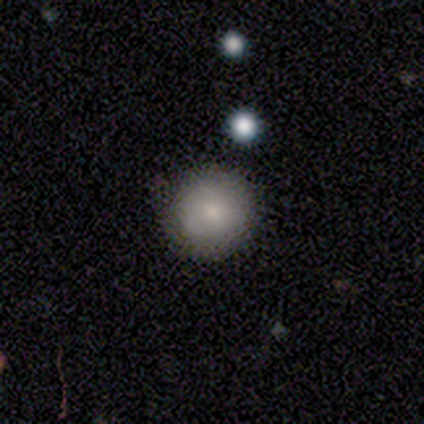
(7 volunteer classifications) Smooth or featured? smooth (86%)
How rounded? round (83%)
Merging? none (57%)